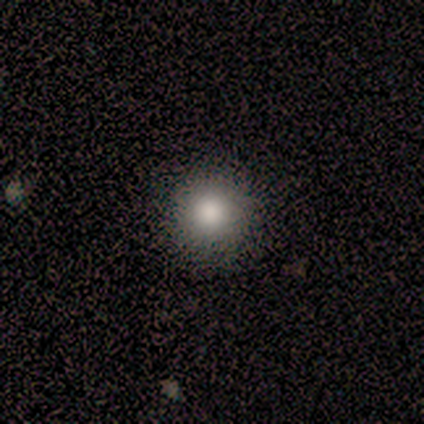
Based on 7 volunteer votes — This is clearly a smooth galaxy (100%). How rounded: clearly round (100%). Merging: clearly none (100%).